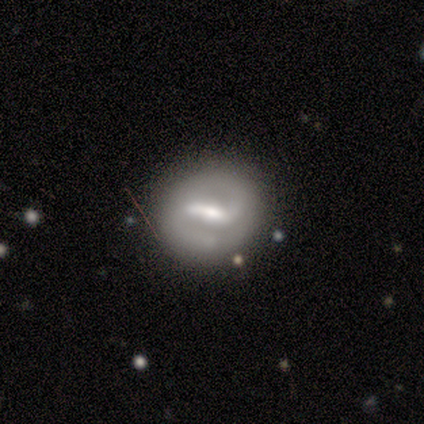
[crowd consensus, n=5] Smooth or featured: featured or disk — 100%
Edge-on disk: no — 100%
Bar: strong — 100%
Spiral arms: yes — 60% (no — 40%)
Spiral winding: loose — 67% (medium — 33%)
Spiral arm count: 2 — 100%
Bulge size: moderate — 40% (dominant — 20%)
Merging: none — 80% (merger — 20%)